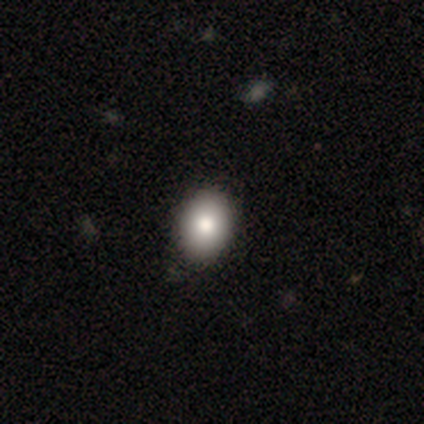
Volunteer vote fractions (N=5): This is likely a smooth galaxy (60%). How rounded: clearly in between (100%). Merging: clearly none (80%).